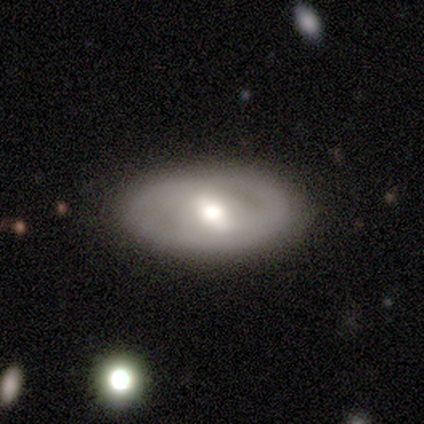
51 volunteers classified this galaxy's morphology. Smooth or featured? 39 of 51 (76%) said featured or disk. Edge-on disk? 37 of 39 (95%) said no. Bar? 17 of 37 (46%) said strong. Spiral arms? 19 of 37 (51%) said no. Bulge size? 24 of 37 (65%) said moderate. Merging? 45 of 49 (92%) said none.